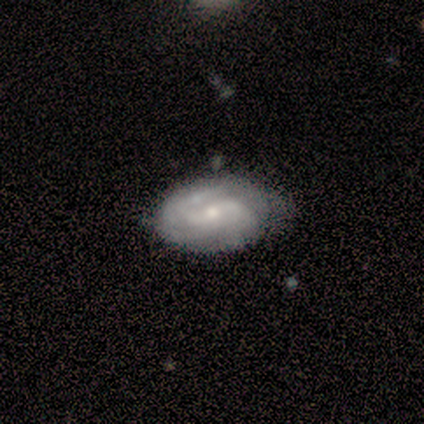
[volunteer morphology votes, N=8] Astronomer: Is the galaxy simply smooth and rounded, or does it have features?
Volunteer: featured or disk — 75%.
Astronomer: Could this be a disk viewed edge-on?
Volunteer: no — 83%.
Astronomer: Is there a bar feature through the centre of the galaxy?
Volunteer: strong — 40%, tied with weak at 40%.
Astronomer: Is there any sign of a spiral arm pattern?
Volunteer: yes — 100%.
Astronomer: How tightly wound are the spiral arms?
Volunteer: tight — 40%, tied with medium at 40%.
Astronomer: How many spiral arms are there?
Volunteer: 2 — 60% (runner-up: can't tell, 40%).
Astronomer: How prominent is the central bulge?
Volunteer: small — 80%.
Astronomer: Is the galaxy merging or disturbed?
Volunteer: none — 75%.